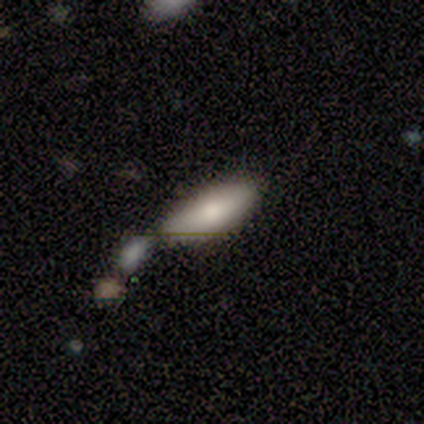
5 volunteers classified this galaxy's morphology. Smooth or featured? smooth (80%)
How rounded? in between (75%)
Merging? none (75%)